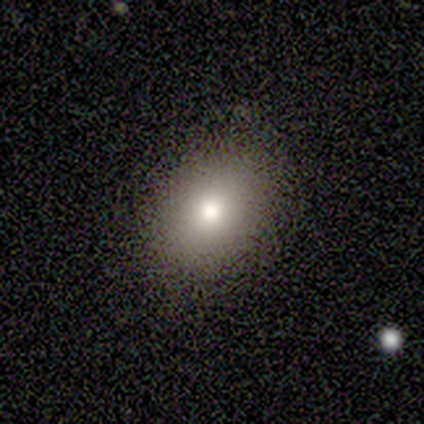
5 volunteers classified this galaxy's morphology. A smooth galaxy with no disk features (100%) that is round (60%). Merging: none (80%).